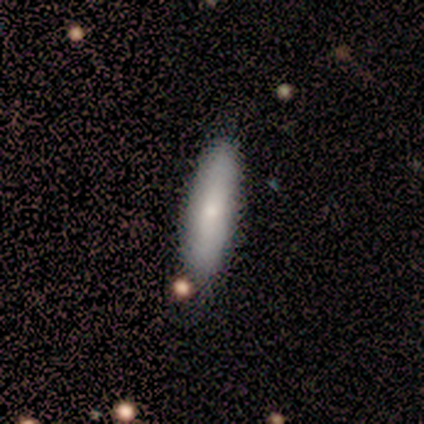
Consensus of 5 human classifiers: Q: Smooth or featured?
A: smooth (60%); runner-up: featured or disk (20%)
Q: How rounded?
A: cigar-shaped (67%); runner-up: in between (33%)
Q: Merging?
A: none (50%); tied with: minor disturbance (50%)